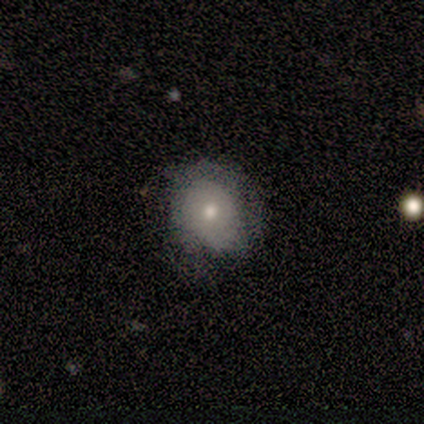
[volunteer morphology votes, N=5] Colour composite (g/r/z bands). It shows a featured or disk galaxy (60%) with no bar (67%), no spiral arms (67%) and a small central bulge (100%). Merging: none (60%).